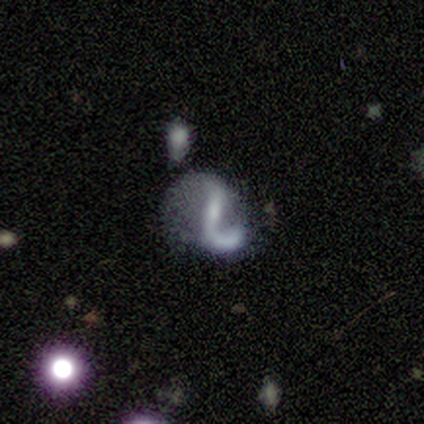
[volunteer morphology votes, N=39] Smooth or featured? featured or disk (77%)
Edge-on disk? no (100%)
Bar? strong (40%)
Spiral arms? yes (77%)
Spiral winding? loose (57%)
Spiral arm count? 1 (65%)
Bulge size? small (53%)
Merging? major disturbance (44%)